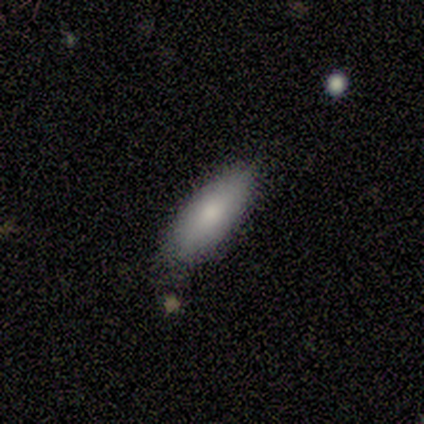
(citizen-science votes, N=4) smooth 75%, featured or disk 25%, star or artifact 0%. Down the decision tree: how rounded — cigar-shaped (67%); merging — none (50%, tied with minor disturbance).